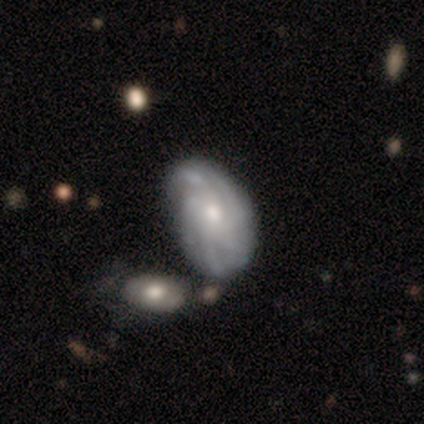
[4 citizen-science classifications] Overall: featured or disk (75%). Edge-on disk: no (67%; yes 33%). Bar: no (100%). Spiral arms: yes (100%). Spiral arm count: more than 4 (100%). Spiral winding: tight (50%, tied with medium). Bulge size: moderate (100%). Merging: none (67%; merger 33%).